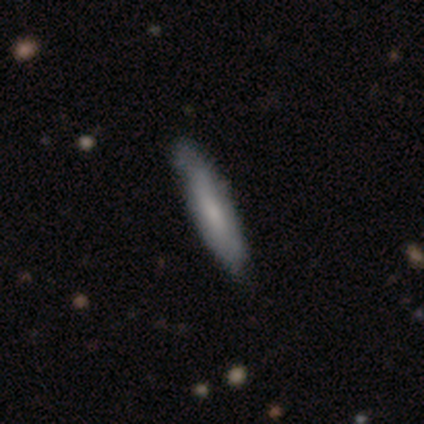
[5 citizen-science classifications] This appears to be a smooth galaxy with no disk features (60%) that is cigar-shaped (100%). Merging: none (100%).